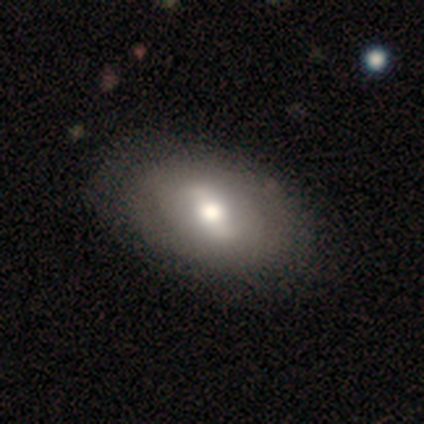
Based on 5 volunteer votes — Smooth or featured? 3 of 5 (60%) said featured or disk. Edge-on disk? 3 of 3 (100%) said no. Bar? 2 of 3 (67%) said strong. Spiral arms? 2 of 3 (67%) said no. Bulge size? 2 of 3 (67%) said moderate. Merging? 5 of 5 (100%) said none.